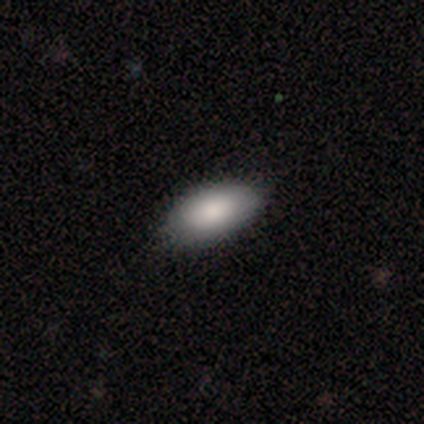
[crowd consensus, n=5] Overall: smooth (100%). How rounded: in between (100%). Merging: none (100%).